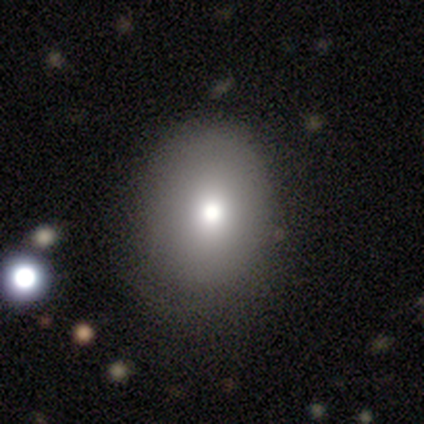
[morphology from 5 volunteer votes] Smooth or featured? featured or disk (40%, tied with star or artifact)
Edge-on disk? no (100%)
Bar? no (100%)
Spiral arms? no (100%)
Bulge size? moderate (50%, tied with small)
Merging? none (100%)